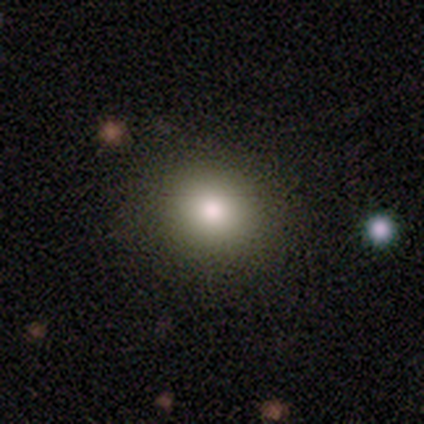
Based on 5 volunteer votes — Overall: smooth (60%; featured or disk 20%). How rounded: round (67%; in between 33%). Merging: none (75%).